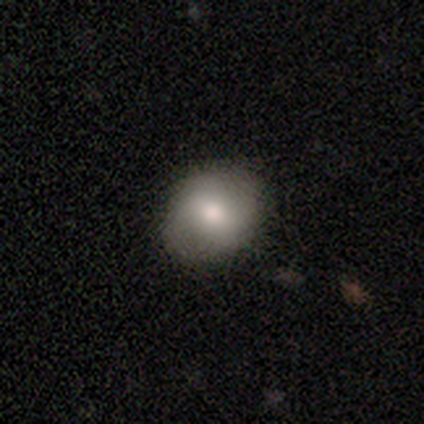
A smooth galaxy with no disk features (67%) that is round (58%).

Vote fractions:
- Smooth or featured? smooth: 67% / featured or disk: 26% / star or artifact: 8%
- How rounded? round: 58% / in between: 42% / cigar-shaped: 0%
- Merging? none: 78% / minor disturbance: 19% / merger: 3% / major disturbance: 0%